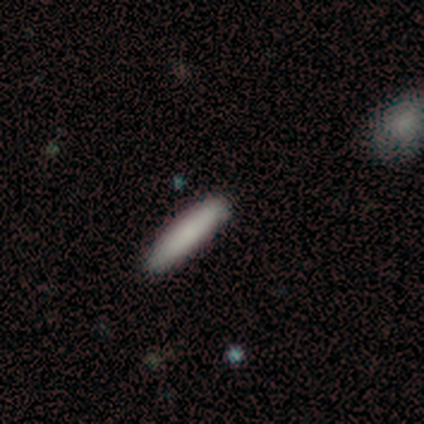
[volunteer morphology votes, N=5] smooth 100%, featured or disk 0%, star or artifact 0%. Down the decision tree: how rounded — cigar-shaped (80%); merging — none (80%).